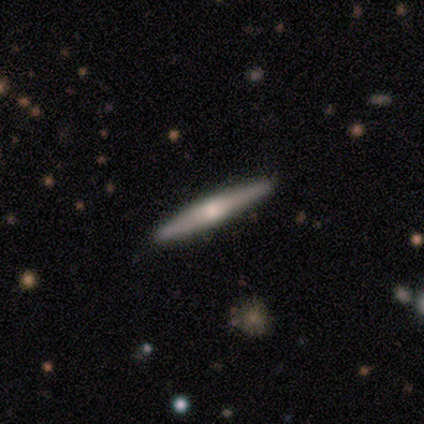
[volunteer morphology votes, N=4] smooth 50% (tied), featured or disk 50% (tied), star or artifact 0%. Down the decision tree: how rounded — cigar-shaped (100%); merging — none (100%).